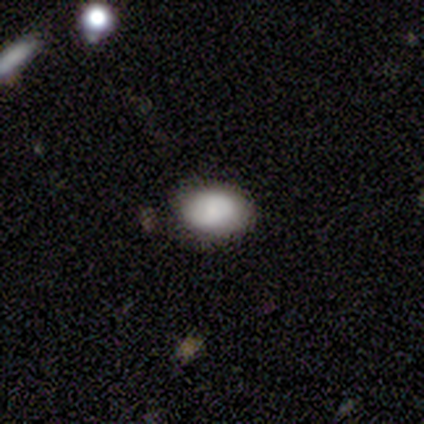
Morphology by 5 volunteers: Q: Smooth or featured?
A: smooth (80%); runner-up: featured or disk (20%)
Q: How rounded?
A: round (50%); tied with: in between (50%)
Q: Merging?
A: none (100%)